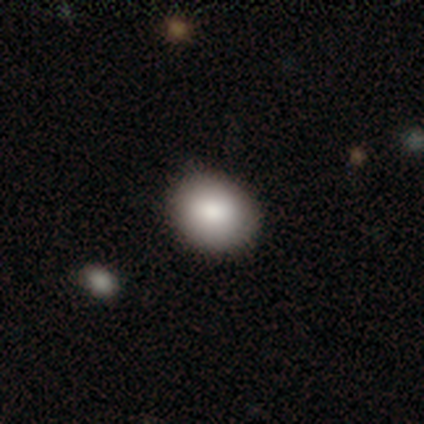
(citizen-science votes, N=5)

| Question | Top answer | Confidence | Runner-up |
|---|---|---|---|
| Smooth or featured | smooth | 100% | — |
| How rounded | in between | 60% | round (40%) |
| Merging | none | 80% | minor disturbance (20%) |